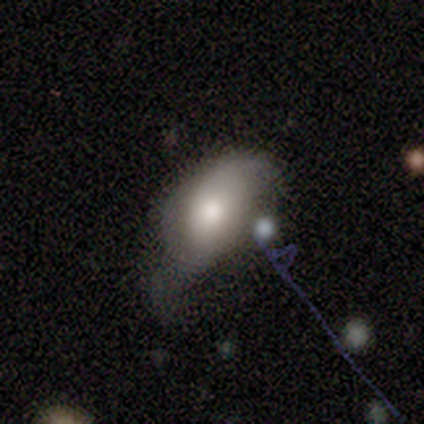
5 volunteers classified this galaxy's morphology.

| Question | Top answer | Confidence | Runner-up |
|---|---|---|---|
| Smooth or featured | featured or disk | 60% | smooth (20%) |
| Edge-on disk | no | 100% | — |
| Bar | strong | 33% | tied: weak (33%), no (33%) |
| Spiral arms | yes | 67% | no (33%) |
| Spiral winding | loose | 100% | — |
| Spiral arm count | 1 | 50% | tied: 2 (50%) |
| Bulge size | moderate | 100% | — |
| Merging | minor disturbance | 50% | tied: major disturbance (50%) |